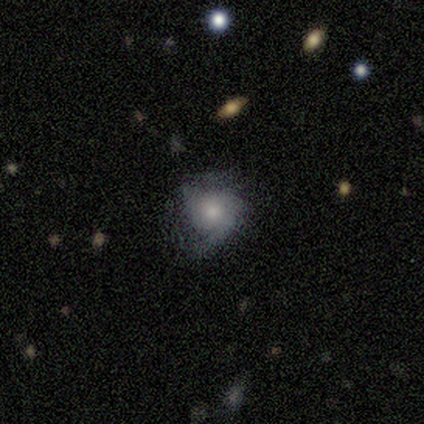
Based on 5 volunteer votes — Smooth or featured? 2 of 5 (40%, tied with featured or disk) said smooth. How rounded? 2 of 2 (100%) said round. Merging? 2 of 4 (50%, tied with minor disturbance) said none.